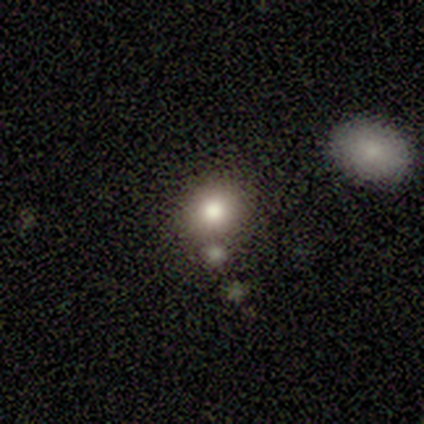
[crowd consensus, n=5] smooth_or_featured: smooth (p=0.80) [alt: featured or disk p=0.20]
how_rounded: round (p=0.75) [alt: cigar-shaped p=0.25]
merging: none (p=1.00)